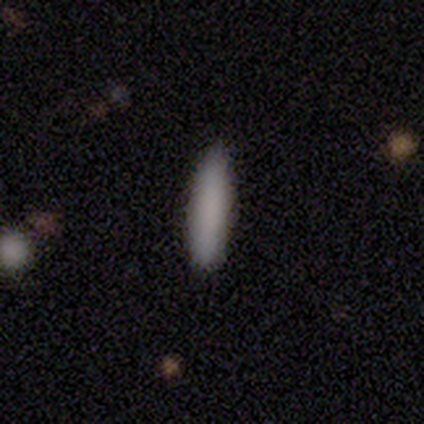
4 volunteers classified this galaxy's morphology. Consensus on every question: smooth or featured — smooth (100%); how rounded — cigar-shaped (100%); merging — none (100%).